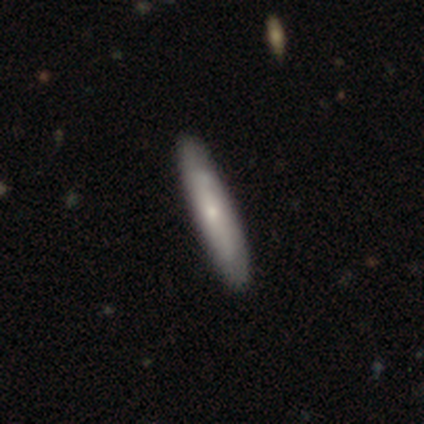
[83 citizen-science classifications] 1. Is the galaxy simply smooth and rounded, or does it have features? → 61% smooth, 30% featured or disk, 8% star or artifact.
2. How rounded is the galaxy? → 94% cigar-shaped, 6% in between, 0% round.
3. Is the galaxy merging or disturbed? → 82% none, 13% minor disturbance, 4% major disturbance, 1% merger.